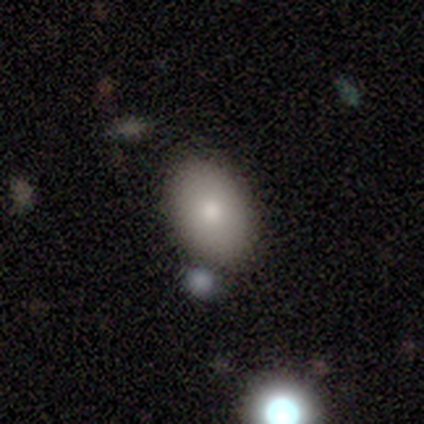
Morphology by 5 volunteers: smooth 80%, featured or disk 20%, star or artifact 0%. Down the decision tree: how rounded — in between (75%); merging — none (80%).